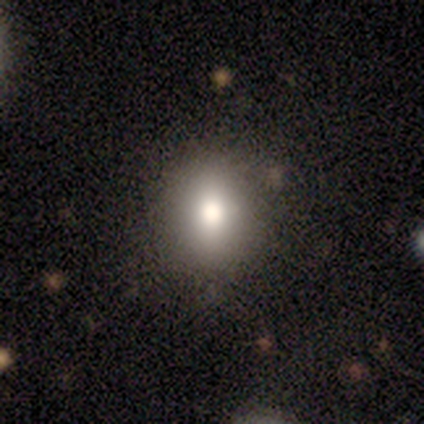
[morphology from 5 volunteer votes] A smooth galaxy with no disk features (80%) that is round (75%). Merging: none (75%).